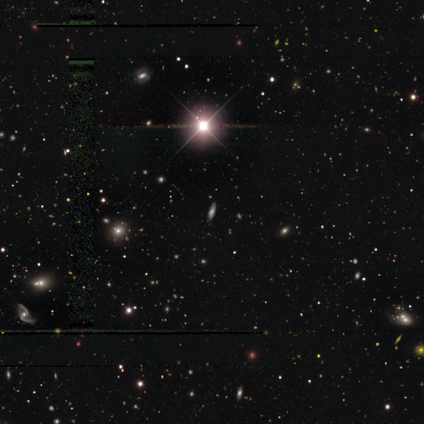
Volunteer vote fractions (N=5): Morphology: type=smooth (40%, tied with star or artifact); roundness=in between (50%, tied with cigar-shaped); merging=none (100%).